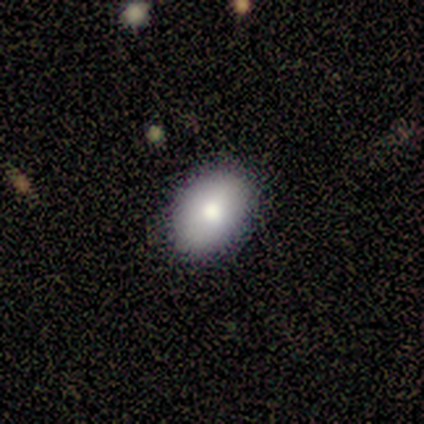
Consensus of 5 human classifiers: This appears to be a smooth galaxy with no disk features (80%) that is in between round and cigar-shaped (100%). Merging: none (100%).